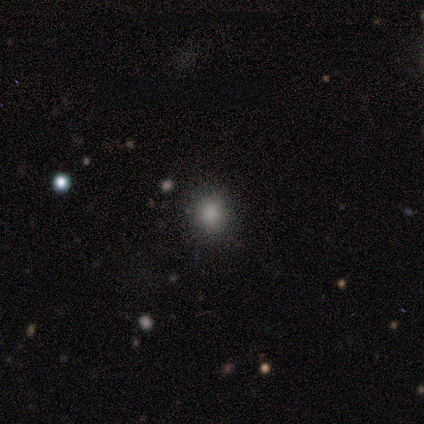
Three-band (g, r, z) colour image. It shows a smooth galaxy with no disk features (86%) that is round (83%). Merging: none (86%).